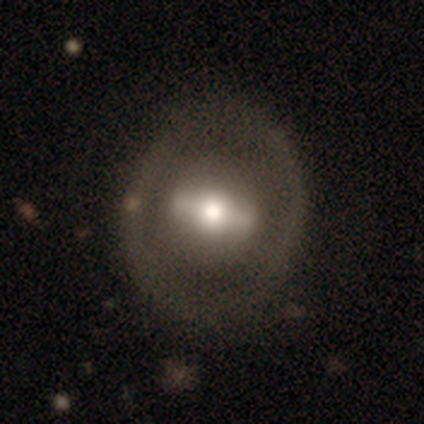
Smooth or featured: featured or disk — 67% (smooth — 23%)
Edge-on disk: no — 83% (yes — 17%)
Bar: strong — 71% (weak — 17%)
Spiral arms: no — 92% (yes — 8%)
Bulge size: moderate — 75% (large — 17%)
Merging: none — 77% (minor disturbance — 15%)